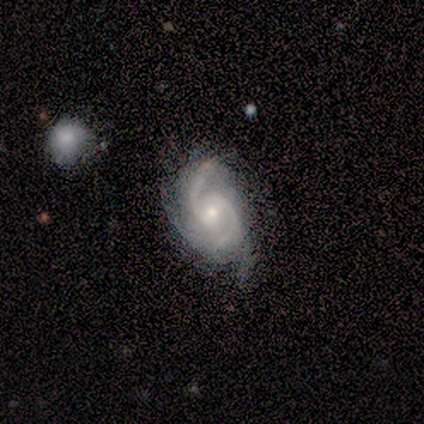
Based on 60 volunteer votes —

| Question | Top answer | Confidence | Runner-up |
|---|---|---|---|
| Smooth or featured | featured or disk | 95% | smooth (3%) |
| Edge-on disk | no | 96% | yes (4%) |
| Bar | no | 58% | weak (27%) |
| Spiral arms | yes | 100% | — |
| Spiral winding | medium | 55% | tight (33%) |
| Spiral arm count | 2 | 76% | 3 (22%) |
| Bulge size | small | 58% | moderate (36%) |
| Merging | none | 49% | minor disturbance (34%) |